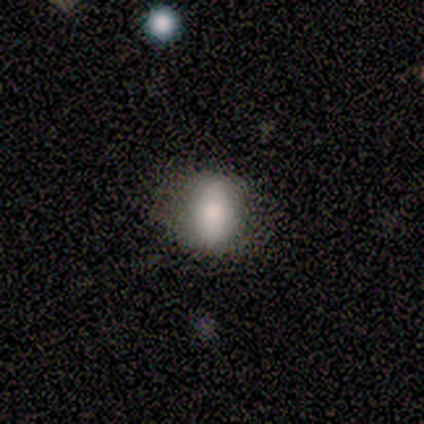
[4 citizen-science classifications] Morphology: type=smooth (75%); roundness=in between (100%); merging=none (67%).